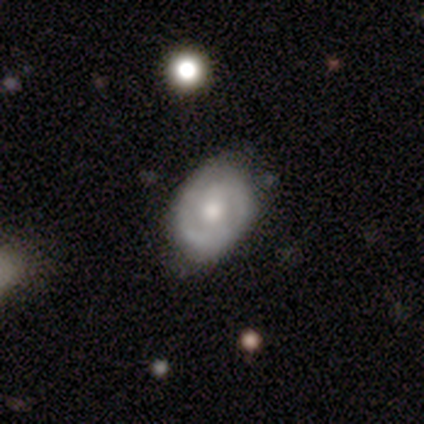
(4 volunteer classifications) A featured or disk galaxy (100%) with no bar (100%), 1 (67%) tight (67%) spiral arms (75%) and a moderate central bulge (75%). Merging: none (75%).